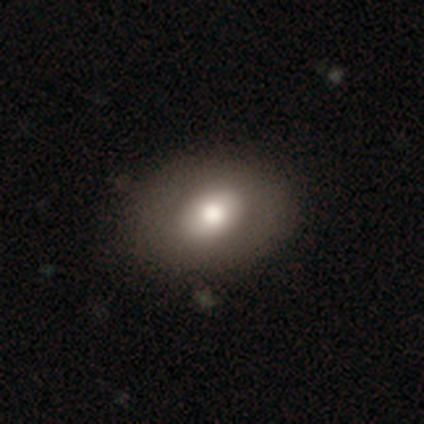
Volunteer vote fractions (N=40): A smooth galaxy with no disk features (60%) that is in between round and cigar-shaped (79%). Merging: none (81%).